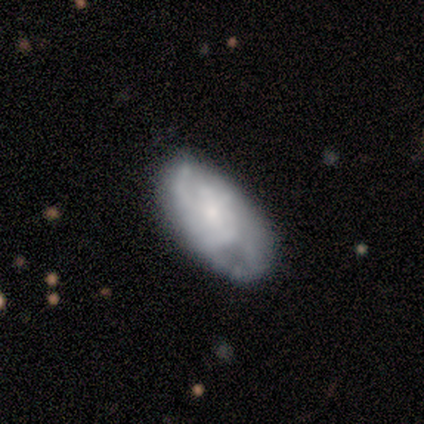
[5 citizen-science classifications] This is clearly a featured or disk galaxy (100%). It is clearly not viewed edge-on (100%). Bar: clearly no (80%). Spiral arm pattern: clearly yes (100%). Spiral arm count: likely can't tell (60%). Spiral winding: likely tight (60%). Central bulge: likely small (60%). Merging: likely none (60%).